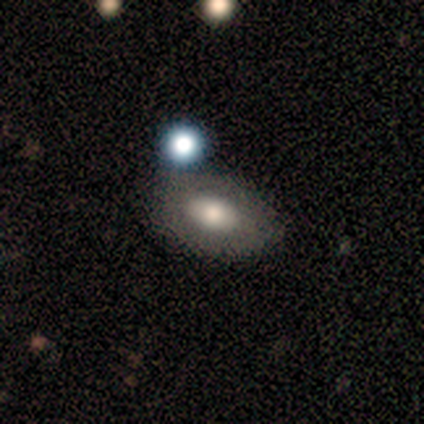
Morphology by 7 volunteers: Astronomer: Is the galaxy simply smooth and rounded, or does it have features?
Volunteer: smooth — 86%.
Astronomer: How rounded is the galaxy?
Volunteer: in between — 100%.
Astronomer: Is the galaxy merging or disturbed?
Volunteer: none — 43% (runner-up: minor disturbance, 29%).